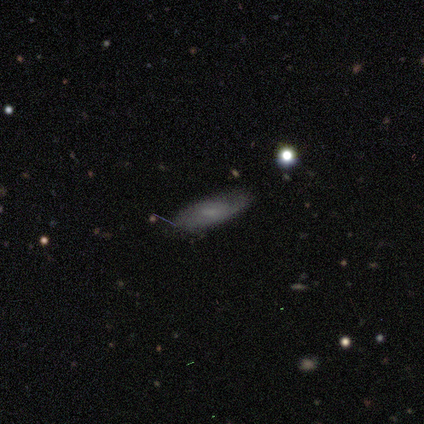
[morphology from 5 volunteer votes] Smooth or featured? featured or disk (80%)
Edge-on disk? no (100%)
Bar? no (75%)
Spiral arms? yes (50%, tied with no)
Spiral winding? loose (100%)
Spiral arm count? can't tell (100%)
Bulge size? small (50%)
Merging? none (60%)